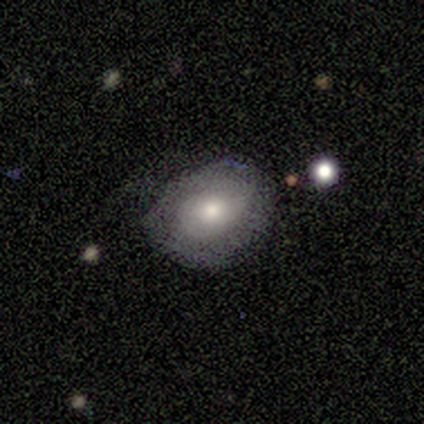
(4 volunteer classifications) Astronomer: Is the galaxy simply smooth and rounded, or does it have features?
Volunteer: smooth — 50%, tied with featured or disk at 50%.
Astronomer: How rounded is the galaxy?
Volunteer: in between — 100%.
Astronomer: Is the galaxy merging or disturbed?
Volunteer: none — 50%.